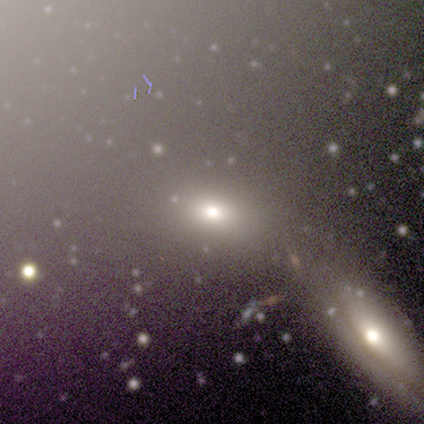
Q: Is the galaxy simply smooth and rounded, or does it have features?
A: smooth — 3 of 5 (60%).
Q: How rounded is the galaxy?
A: in between — 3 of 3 (100%).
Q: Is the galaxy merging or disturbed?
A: none — 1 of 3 (33%, tied with minor disturbance and merger).